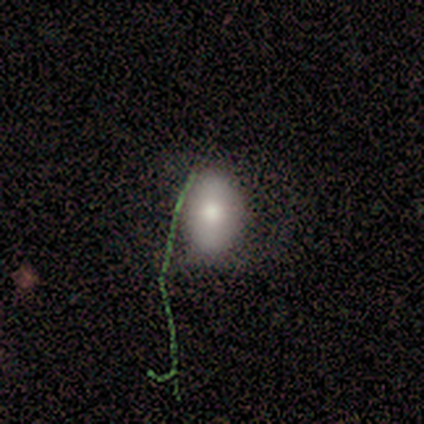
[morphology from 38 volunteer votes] Smooth or featured? smooth (84%)
How rounded? in between (78%)
Merging? none (76%)